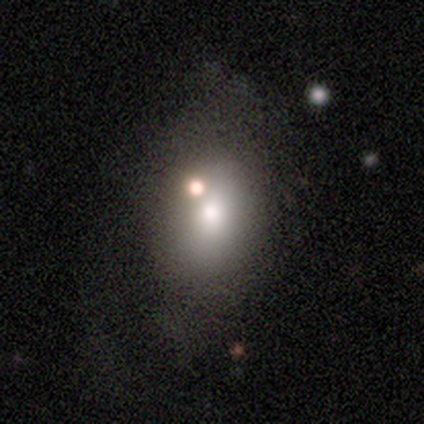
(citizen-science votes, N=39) Smooth or featured: smooth — 69% (featured or disk — 23%)
How rounded: in between — 85% (round — 15%)
Merging: none — 36% (merger — 22%)